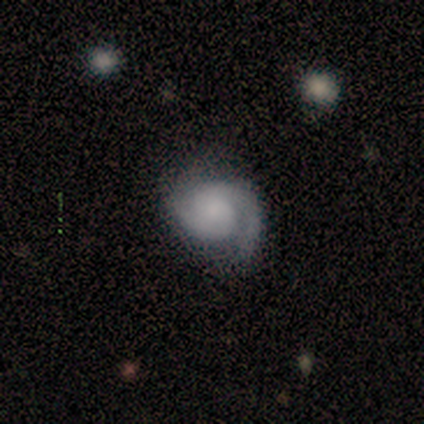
Smooth or featured? 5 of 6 (83%) said featured or disk. Edge-on disk? 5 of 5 (100%) said no. Bar? 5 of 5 (100%) said no. Spiral arms? 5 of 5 (100%) said yes. Spiral winding? 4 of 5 (80%) said medium. Spiral arm count? 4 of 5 (80%) said 2. Bulge size? 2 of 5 (40%, tied with small) said large. Merging? 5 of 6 (83%) said none.